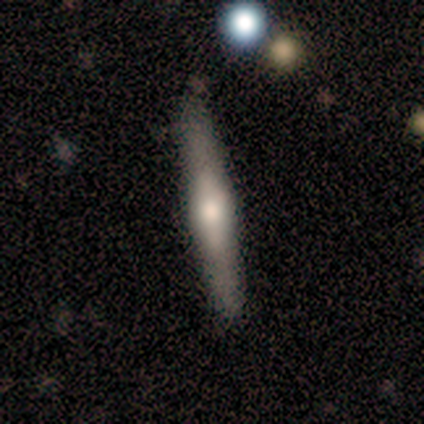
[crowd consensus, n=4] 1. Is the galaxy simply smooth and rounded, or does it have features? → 75% featured or disk, 25% smooth, 0% star or artifact.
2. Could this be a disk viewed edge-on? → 100% yes, 0% no.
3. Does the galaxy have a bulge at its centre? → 33% boxy (tied), 33% none (tied), 33% rounded (tied).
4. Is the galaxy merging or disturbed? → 50% none (tied), 50% merger (tied), 0% minor disturbance, 0% major disturbance.